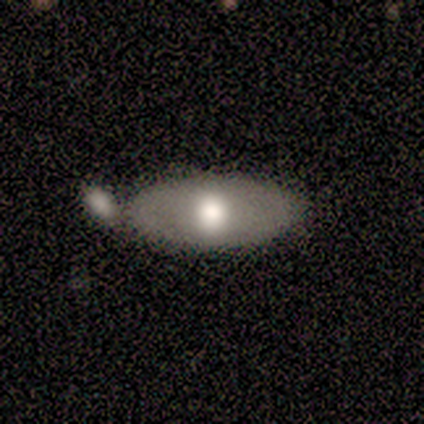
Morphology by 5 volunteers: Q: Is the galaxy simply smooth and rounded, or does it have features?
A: smooth — 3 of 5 (60%).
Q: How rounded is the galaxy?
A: in between — 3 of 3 (100%).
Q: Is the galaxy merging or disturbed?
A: none — 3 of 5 (60%).